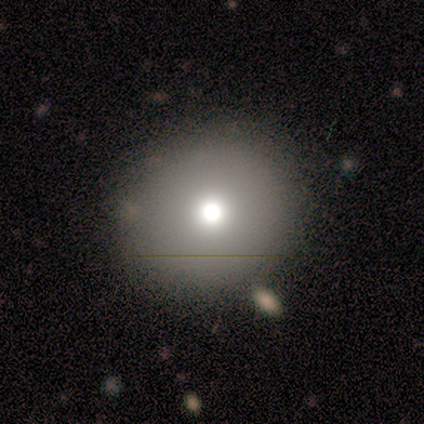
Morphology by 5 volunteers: Smooth or featured?
  - featured or disk: 60% *
  - smooth: 40%
  - star or artifact: 0%
Edge-on disk?
  - no: 100% *
  - yes: 0%
Bar?
  - no: 100% *
  - strong: 0%
  - weak: 0%
Spiral arms?
  - no: 100% *
  - yes: 0%
Bulge size?
  - moderate: 67% *
  - large: 33%
  - dominant: 0%
  - small: 0%
  - none: 0%
Merging?
  - none: 80% *
  - minor disturbance: 20%
  - major disturbance: 0%
  - merger: 0%